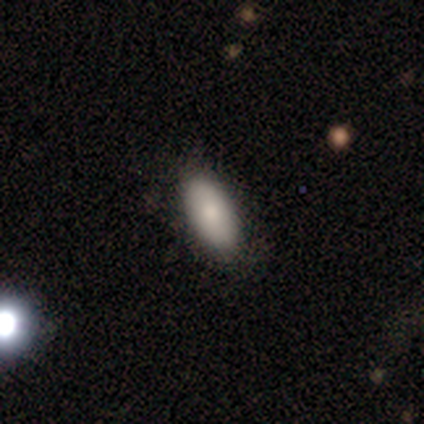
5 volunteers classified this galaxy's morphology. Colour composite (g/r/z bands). It shows a smooth galaxy with no disk features (100%) that is in between round and cigar-shaped (80%). Merging: none (60%).